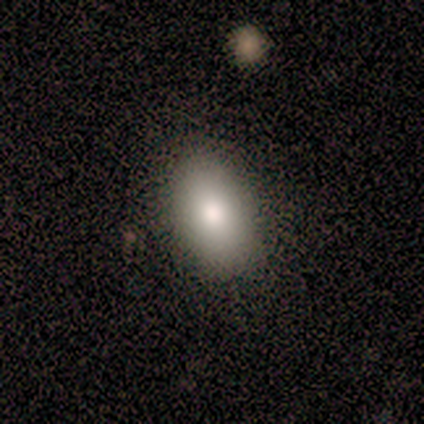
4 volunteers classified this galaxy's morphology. This appears to be a smooth galaxy with no disk features (100%) that is in between round and cigar-shaped (75%). Merging: none (75%).